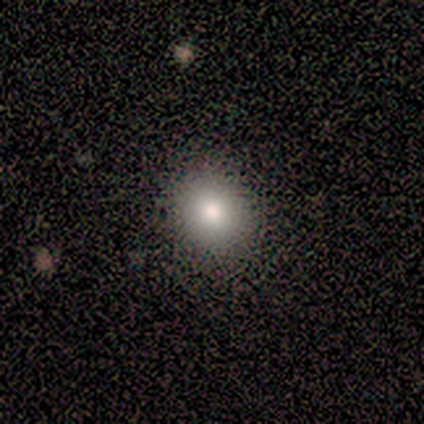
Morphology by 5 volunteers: smooth 100%, featured or disk 0%, star or artifact 0%. Down the decision tree: how rounded — round (100%); merging — none (100%).